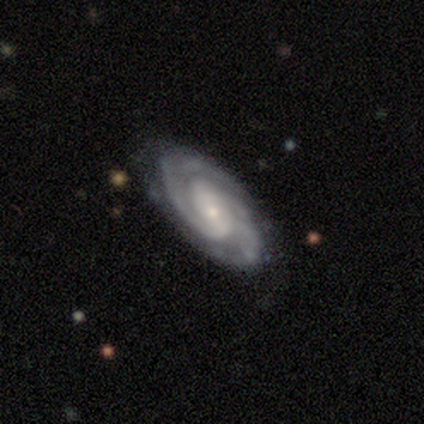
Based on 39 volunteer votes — This is clearly a featured or disk galaxy (97%). It is likely not viewed edge-on (76%). Bar: possibly weak (55%). Spiral arm pattern: clearly yes (100%). Spiral arm count: possibly 2 (52%). Spiral winding: possibly tight (59%). Central bulge: clearly small (93%). Merging: clearly none (82%).